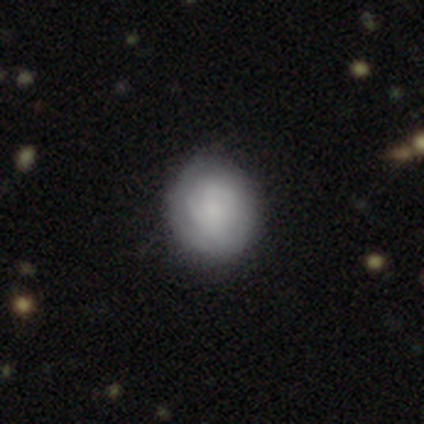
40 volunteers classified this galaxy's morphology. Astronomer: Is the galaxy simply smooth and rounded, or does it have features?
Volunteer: smooth — 62%.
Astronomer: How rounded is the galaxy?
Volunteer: round — 84%.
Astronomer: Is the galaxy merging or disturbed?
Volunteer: none — 70%.